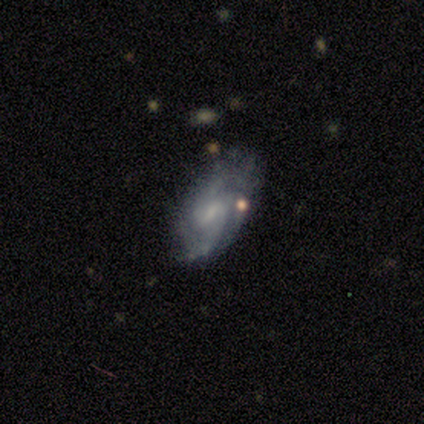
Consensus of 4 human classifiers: A featured or disk galaxy (100%) with a weak bar (50%, tied with no), 3 (50%) tight (75%) spiral arms (100%) and a large central bulge (25%, tied with moderate, small and none). Merging: none (50%, tied with minor disturbance).